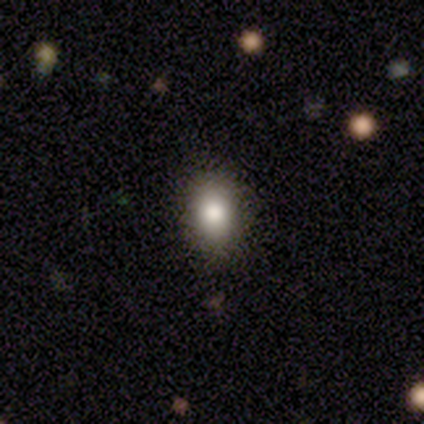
This appears to be a smooth galaxy with no disk features (80%) that is round (50%, tied with in between). Merging: none (80%).